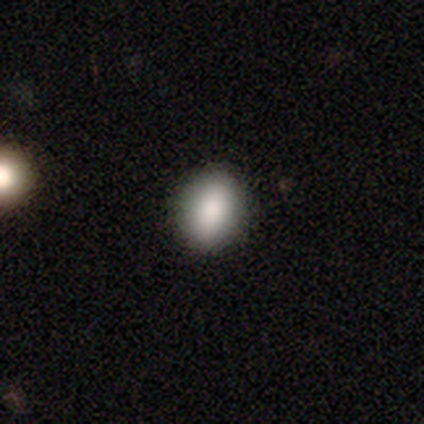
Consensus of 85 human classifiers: smooth_or_featured: smooth (p=0.76) [alt: featured or disk p=0.12]
how_rounded: in between (p=0.58) [alt: round p=0.38]
merging: none (p=0.92) [alt: minor disturbance p=0.08]